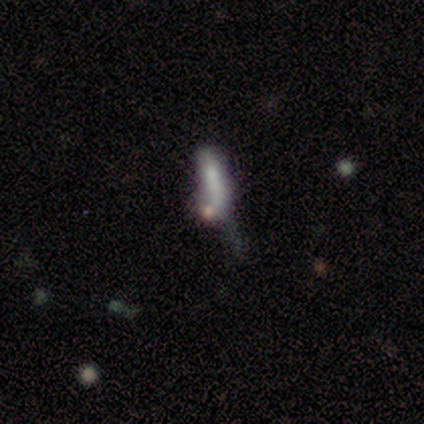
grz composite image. It shows a smooth galaxy with no disk features (40%, tied with featured or disk) that is cigar-shaped (100%). Merging: none (50%, tied with major disturbance).